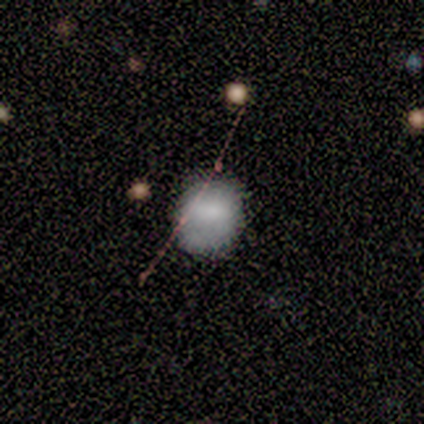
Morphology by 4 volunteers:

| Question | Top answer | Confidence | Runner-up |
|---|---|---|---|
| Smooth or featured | smooth | 75% | featured or disk (25%) |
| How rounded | round | 67% | in between (33%) |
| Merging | none | 100% | — |